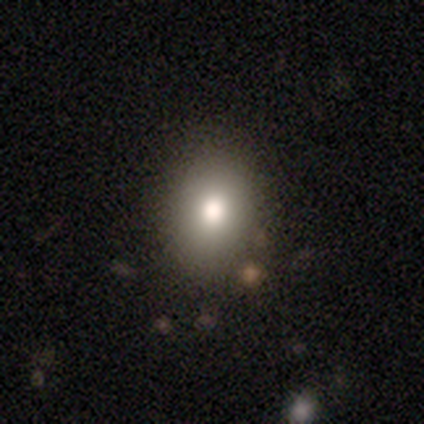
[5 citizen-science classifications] smooth 100%, featured or disk 0%, star or artifact 0%. Down the decision tree: how rounded — in between (80%); merging — none (100%).